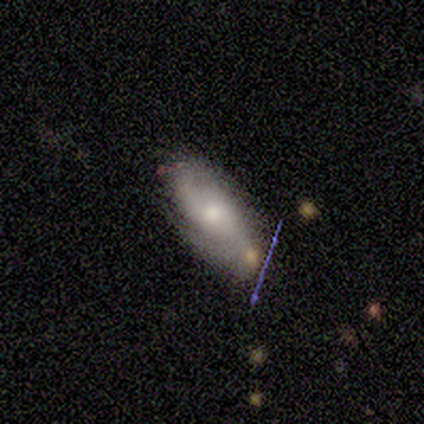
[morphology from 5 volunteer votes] This is likely a featured or disk galaxy (60%). It is clearly not viewed edge-on (100%). Bar: likely no (67%). Spiral arm pattern: clearly yes (100%). Spiral arm count: likely 2 (67%). Spiral winding: likely medium (67%). Central bulge: likely moderate (67%). Merging: marginally none (40%, tied with minor disturbance).